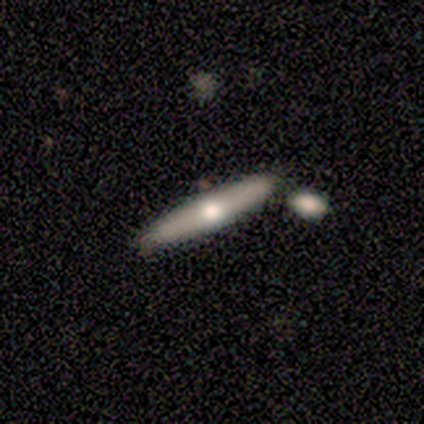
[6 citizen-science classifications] Q: Smooth or featured?
A: smooth (67%); runner-up: featured or disk (33%)
Q: How rounded?
A: cigar-shaped (100%)
Q: Merging?
A: none (67%); runner-up: merger (33%)